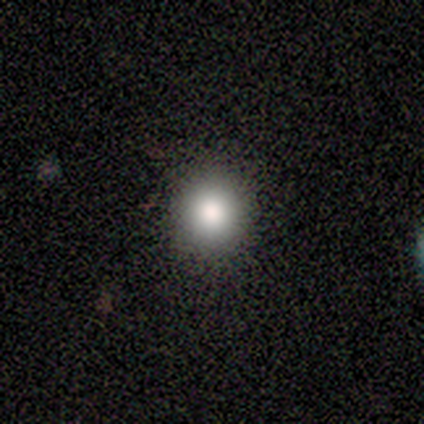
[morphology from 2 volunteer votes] Overall: smooth (100%). How rounded: round (100%). Merging: none (100%).